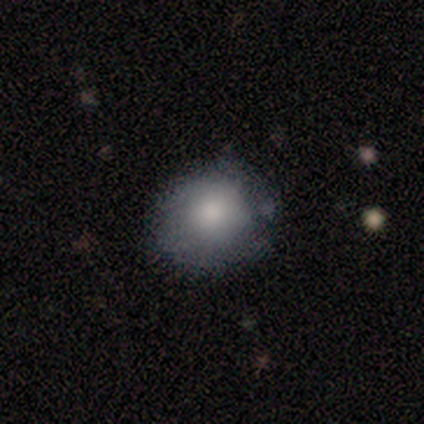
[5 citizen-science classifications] Morphology: type=smooth (80%); roundness=round (75%); merging=none (50%, tied with minor disturbance).